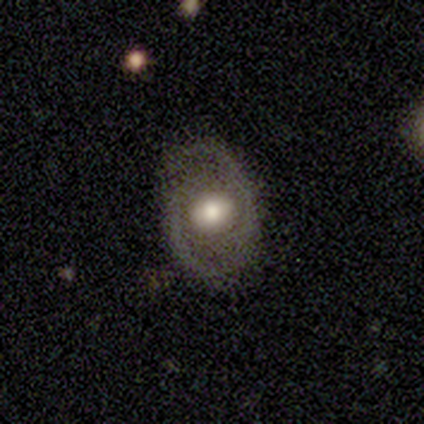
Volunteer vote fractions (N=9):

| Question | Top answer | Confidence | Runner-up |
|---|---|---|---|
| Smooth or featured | featured or disk | 67% | smooth (33%) |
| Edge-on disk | no | 100% | — |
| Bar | no | 50% | weak (33%) |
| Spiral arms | yes | 67% | no (33%) |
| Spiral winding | medium | 75% | tight (25%) |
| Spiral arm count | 2 | 100% | — |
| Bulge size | moderate | 50% | large (33%) |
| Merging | none | 78% | minor disturbance (11%) |